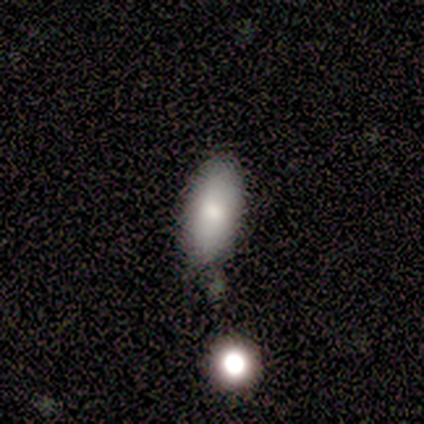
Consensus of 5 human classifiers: Smooth or featured: smooth — 60% (featured or disk — 20%)
How rounded: in between — 100%
Merging: none — 100%